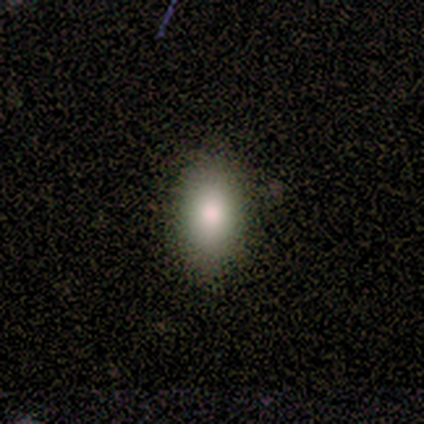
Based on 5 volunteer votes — Volunteers were most divided on "how rounded": in between: 75%, round: 25%, cigar-shaped: 0%. More confident: merging — none (100%); smooth or featured — smooth (80%).